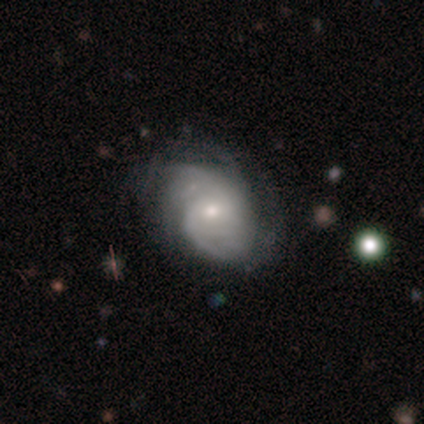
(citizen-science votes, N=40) This is clearly a featured or disk galaxy (82%). It is clearly not viewed edge-on (97%). Bar: possibly no (59%). Spiral arm pattern: clearly yes (88%). Spiral arm count: marginally can't tell (39%). Spiral winding: possibly tight (57%). Central bulge: possibly small (53%). Merging: likely none (69%).